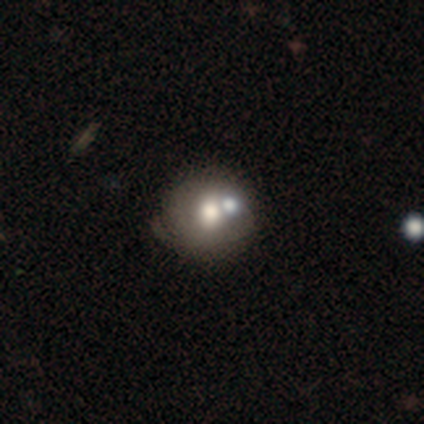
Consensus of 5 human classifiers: Overall: smooth (80%). How rounded: round (75%). Merging: none (50%; minor disturbance 25%).